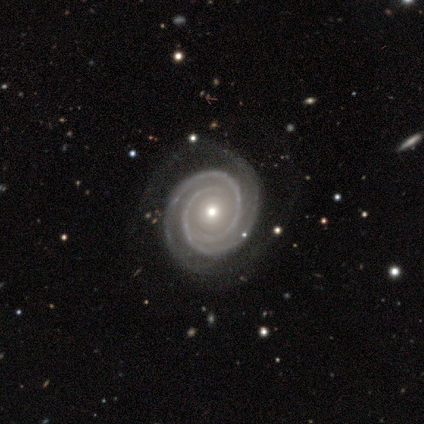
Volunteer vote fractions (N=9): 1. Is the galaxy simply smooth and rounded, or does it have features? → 89% featured or disk, 11% smooth, 0% star or artifact.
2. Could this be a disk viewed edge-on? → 88% no, 12% yes.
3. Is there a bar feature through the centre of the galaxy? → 100% no, 0% strong, 0% weak.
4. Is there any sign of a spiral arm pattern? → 100% yes, 0% no.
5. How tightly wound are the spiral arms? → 100% tight, 0% medium, 0% loose.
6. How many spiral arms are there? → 86% 2, 14% 3, 0% 1, 0% 4, 0% more than 4, 0% can't tell.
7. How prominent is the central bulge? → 57% moderate, 43% small, 0% dominant, 0% large, 0% none.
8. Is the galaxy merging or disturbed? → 78% none, 22% major disturbance, 0% minor disturbance, 0% merger.